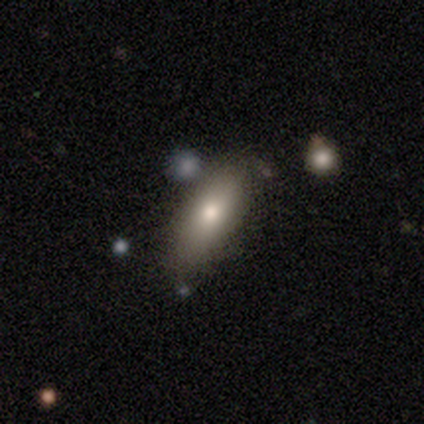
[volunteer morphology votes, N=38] This is clearly a smooth galaxy (82%). How rounded: clearly in between (81%). Merging: clearly none (84%).